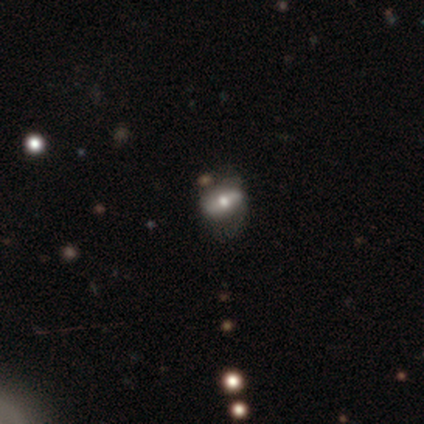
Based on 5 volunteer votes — Smooth or featured: smooth — 40% (tied with featured or disk — 40%)
How rounded: in between — 100%
Merging: none — 75% (minor disturbance — 25%)